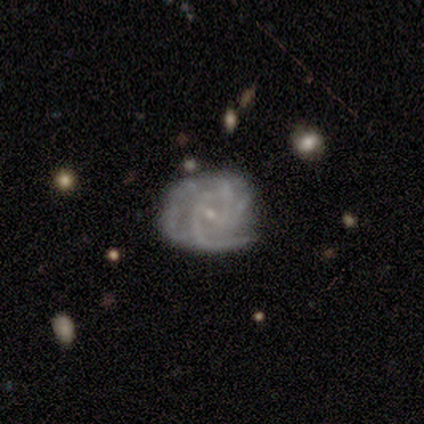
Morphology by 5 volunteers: Q: Smooth or featured?
A: featured or disk (80%); runner-up: star or artifact (20%)
Q: Edge-on disk?
A: no (100%)
Q: Bar?
A: weak (100%)
Q: Spiral arms?
A: yes (100%)
Q: Spiral winding?
A: tight (50%); tied with: medium (50%)
Q: Spiral arm count?
A: 4 (50%); runner-up: 3 (25%)
Q: Bulge size?
A: small (100%)
Q: Merging?
A: major disturbance (50%); runner-up: none (25%)